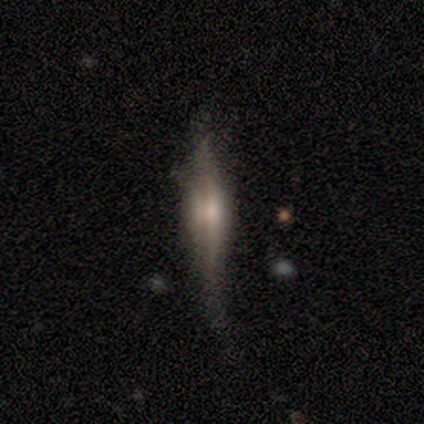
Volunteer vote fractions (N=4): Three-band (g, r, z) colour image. It shows a featured or disk galaxy (50%) viewed edge-on (100%) with a boxy central bulge (50%, tied with rounded). Merging: major disturbance (67%).